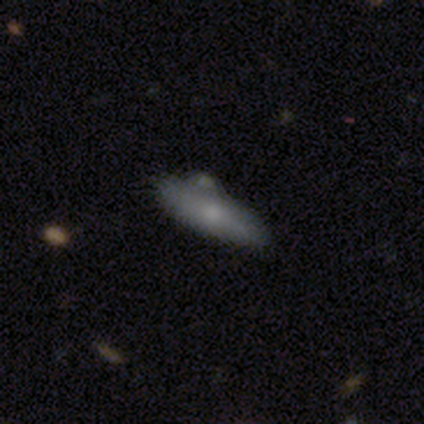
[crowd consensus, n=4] Smooth or featured? smooth (50%, tied with featured or disk)
How rounded? in between (50%, tied with cigar-shaped)
Merging? none (75%)